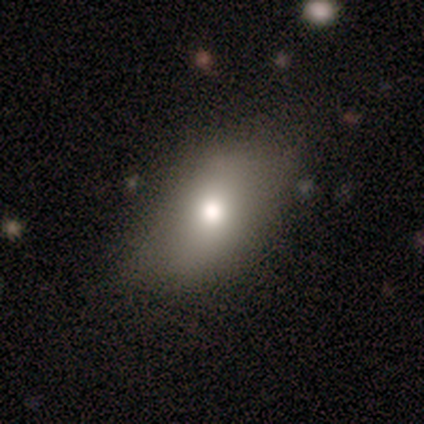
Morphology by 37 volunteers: Smooth or featured?
  - smooth: 84% *
  - featured or disk: 14%
  - star or artifact: 3%
How rounded?
  - in between: 84% *
  - round: 10%
  - cigar-shaped: 6%
Merging?
  - none: 72% *
  - minor disturbance: 28%
  - major disturbance: 0%
  - merger: 0%